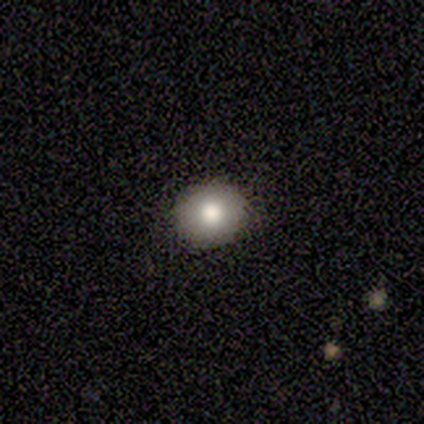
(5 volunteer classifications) This is clearly a smooth galaxy (80%). How rounded: likely round (75%). Merging: clearly none (100%).